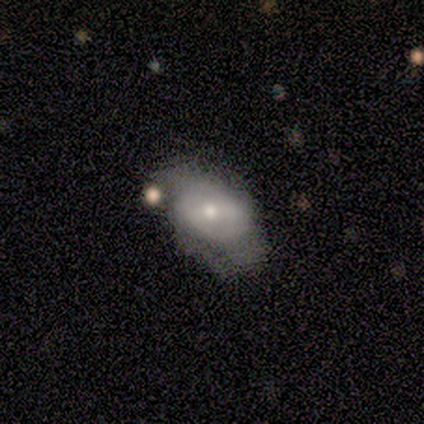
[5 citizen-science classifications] smooth-or-featured: smooth: 60% | featured or disk: 40% | star or artifact: 0%
  how-rounded: in between: 100% | round: 0% | cigar-shaped: 0%
  merging: none: 40% (tied) | merger: 40% (tied) | major disturbance: 20% | minor disturbance: 0%